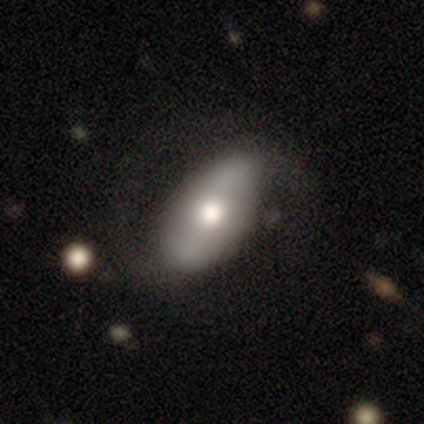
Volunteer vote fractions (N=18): smooth_or_featured: smooth (p=0.50) [tied with: featured or disk p=0.50]
how_rounded: in between (p=1.00)
merging: none (p=0.67) [alt: minor disturbance p=0.22]